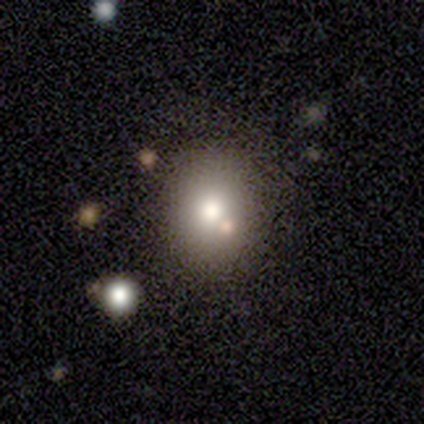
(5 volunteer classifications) Smooth or featured?
  - smooth: 60% *
  - star or artifact: 40%
  - featured or disk: 0%
How rounded?
  - in between: 67% *
  - round: 33%
  - cigar-shaped: 0%
Merging?
  - none: 100% *
  - minor disturbance: 0%
  - major disturbance: 0%
  - merger: 0%